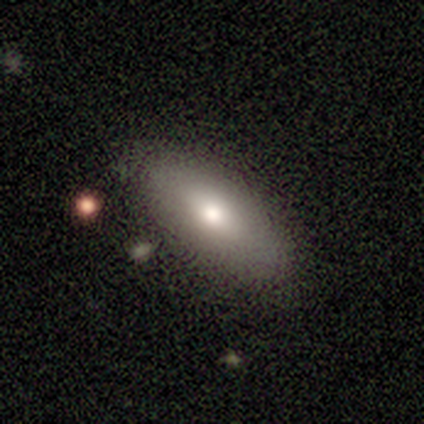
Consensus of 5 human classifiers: A smooth galaxy with no disk features (100%) that is in between round and cigar-shaped (100%).

Vote fractions:
- Smooth or featured? smooth: 100% / featured or disk: 0% / star or artifact: 0%
- How rounded? in between: 100% / round: 0% / cigar-shaped: 0%
- Merging? none: 100% / minor disturbance: 0% / major disturbance: 0% / merger: 0%